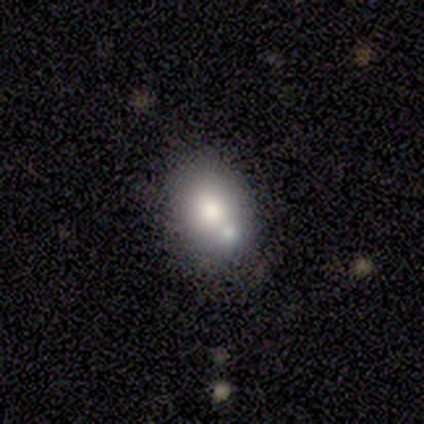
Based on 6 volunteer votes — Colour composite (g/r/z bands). It shows a smooth galaxy with no disk features (50%) that is in between round and cigar-shaped (100%). Merging: merger (50%).